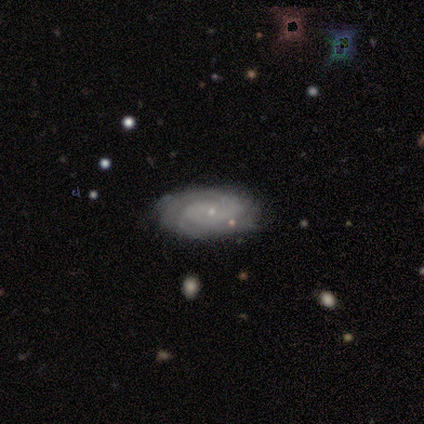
Overall: featured or disk (100%). Edge-on disk: no (100%). Bar: no (75%). Spiral arms: yes (100%). Spiral arm count: can't tell (50%; 2 25%). Spiral winding: tight (50%; medium 25%). Bulge size: small (100%). Merging: none (75%).